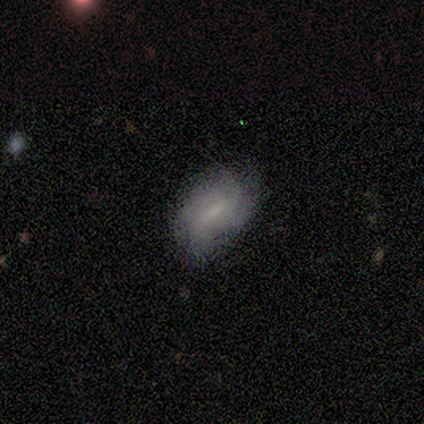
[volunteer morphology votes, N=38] smooth-or-featured: featured or disk: 58% | smooth: 39% | star or artifact: 3%
  disk-edge-on: no: 86% | yes: 14%
    bar: weak: 47% | no: 32% | strong: 21%
    has-spiral-arms: yes: 58% | no: 42%
      spiral-winding: medium: 55% | tight: 45% | loose: 0%
      spiral-arm-count: can't tell: 55% | 4: 27% | 2: 9% | 3: 9% | 1: 0% | more than 4: 0%
    bulge-size: small: 58% | moderate: 26% | none: 16% | dominant: 0% | large: 0%
  merging: none: 65% | minor disturbance: 30% | major disturbance: 3% | merger: 3%